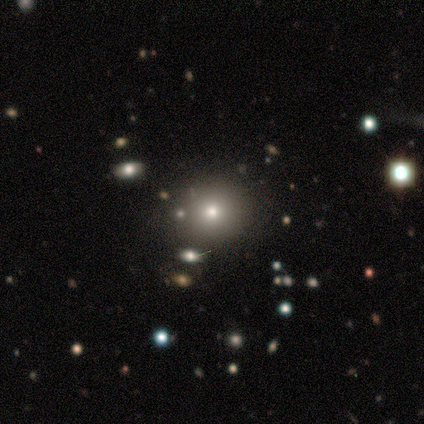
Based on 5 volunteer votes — Overall: smooth (80%). How rounded: round (75%). Merging: none (75%).